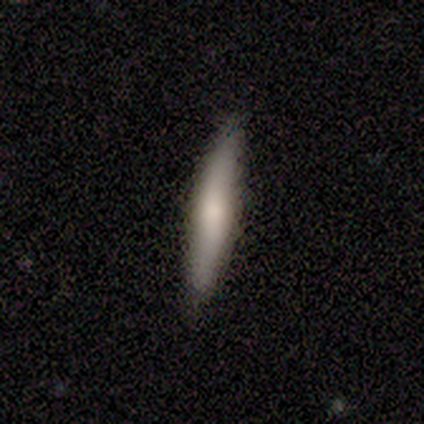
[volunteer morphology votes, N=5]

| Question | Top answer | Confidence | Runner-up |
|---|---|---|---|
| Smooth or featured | smooth | 100% | — |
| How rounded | cigar-shaped | 100% | — |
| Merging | none | 100% | — |